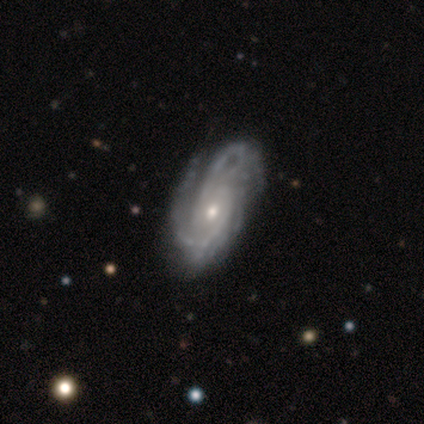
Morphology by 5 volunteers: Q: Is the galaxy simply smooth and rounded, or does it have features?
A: featured or disk — 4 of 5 (80%).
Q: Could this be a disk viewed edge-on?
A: no — 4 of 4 (100%).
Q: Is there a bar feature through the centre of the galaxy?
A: no — 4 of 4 (100%).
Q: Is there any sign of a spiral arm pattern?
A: yes — 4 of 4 (100%).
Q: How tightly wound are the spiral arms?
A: tight — 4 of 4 (100%).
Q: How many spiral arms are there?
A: can't tell — 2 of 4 (50%).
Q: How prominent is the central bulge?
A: moderate — 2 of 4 (50%, tied with small).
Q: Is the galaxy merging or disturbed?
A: none — 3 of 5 (60%).